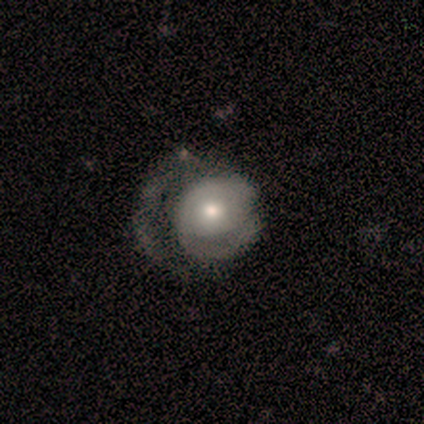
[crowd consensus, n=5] smooth-or-featured: featured or disk: 60% | smooth: 40% | star or artifact: 0%
  disk-edge-on: no: 100% | yes: 0%
    bar: no: 67% | weak: 33% | strong: 0%
    has-spiral-arms: yes: 67% | no: 33%
      spiral-winding: tight: 50% (tied) | medium: 50% (tied) | loose: 0%
      spiral-arm-count: 2: 100% | 1: 0% | 3: 0% | 4: 0% | more than 4: 0% | can't tell: 0%
    bulge-size: moderate: 100% | dominant: 0% | large: 0% | small: 0% | none: 0%
  merging: major disturbance: 60% | minor disturbance: 20% | merger: 20% | none: 0%